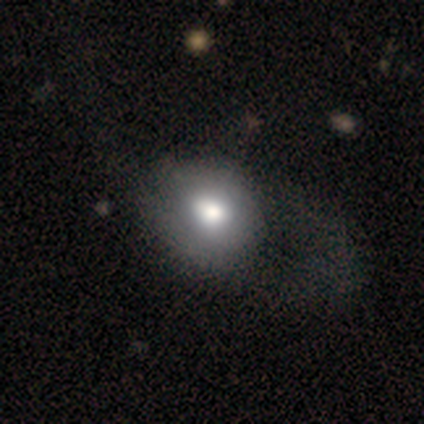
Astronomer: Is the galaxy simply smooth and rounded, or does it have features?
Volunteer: smooth — 84%.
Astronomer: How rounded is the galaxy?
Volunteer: round — 69%.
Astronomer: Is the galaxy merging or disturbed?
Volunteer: none — 58%.